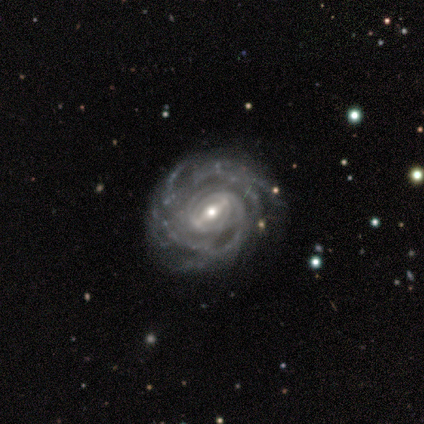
smooth-or-featured: featured or disk: 88% | star or artifact: 12% | smooth: 0%
  disk-edge-on: no: 100% | yes: 0%
    bar: strong: 43% | weak: 29% | no: 29%
    has-spiral-arms: yes: 100% | no: 0%
      spiral-winding: tight: 100% | medium: 0% | loose: 0%
      spiral-arm-count: can't tell: 43% | 3: 29% | 4: 14% | more than 4: 14% | 1: 0% | 2: 0%
    bulge-size: moderate: 57% | small: 43% | dominant: 0% | large: 0% | none: 0%
  merging: none: 71% | minor disturbance: 14% | major disturbance: 14% | merger: 0%